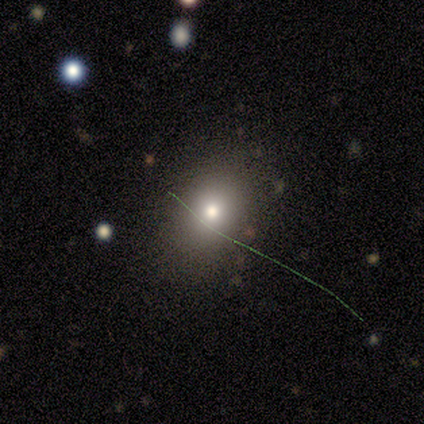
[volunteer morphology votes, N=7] smooth_or_featured: featured or disk (p=0.43) [alt: smooth p=0.29]
disk_edge_on: no (p=1.00)
bar: no (p=1.00)
has_spiral_arms: no (p=1.00)
bulge_size: large (p=0.67) [alt: moderate p=0.33]
merging: none (p=0.80) [alt: merger p=0.20]